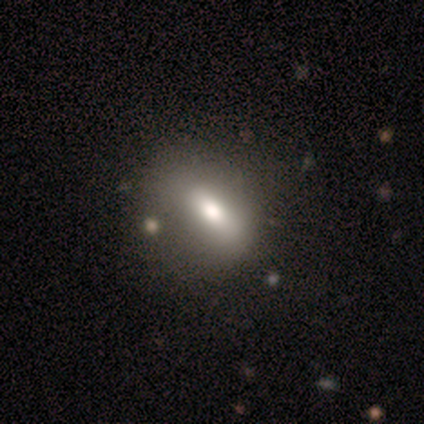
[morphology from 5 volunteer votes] Q: Smooth or featured?
A: smooth (40%); tied with: featured or disk (40%)
Q: How rounded?
A: in between (50%); tied with: cigar-shaped (50%)
Q: Merging?
A: none (75%); runner-up: minor disturbance (25%)